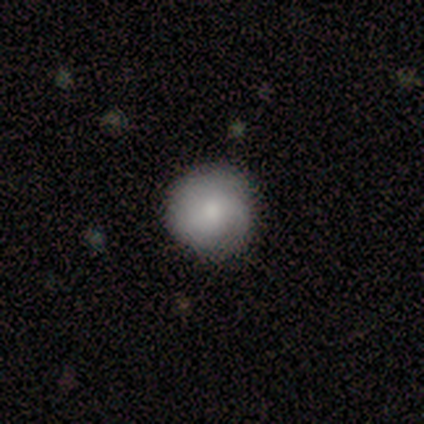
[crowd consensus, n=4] Smooth or featured?
  - featured or disk: 75% *
  - smooth: 25%
  - star or artifact: 0%
Edge-on disk?
  - no: 100% *
  - yes: 0%
Bar?
  - no: 100% *
  - strong: 0%
  - weak: 0%
Spiral arms?
  - yes: 100% *
  - no: 0%
Spiral winding?
  - tight: 67% *
  - medium: 33%
  - loose: 0%
Spiral arm count?
  - can't tell: 100% *
  - 1: 0%
  - 2: 0%
  - 3: 0%
  - 4: 0%
  - more than 4: 0%
Bulge size?
  - small: 67% *
  - moderate: 33%
  - dominant: 0%
  - large: 0%
  - none: 0%
Merging?
  - none: 100% *
  - minor disturbance: 0%
  - major disturbance: 0%
  - merger: 0%